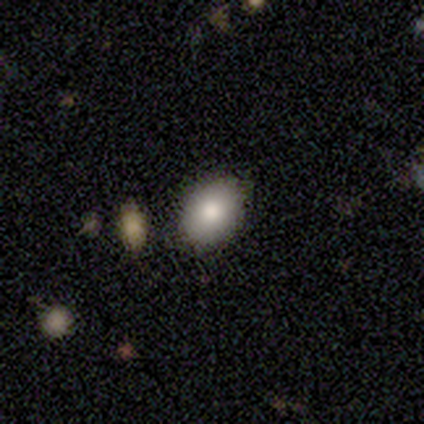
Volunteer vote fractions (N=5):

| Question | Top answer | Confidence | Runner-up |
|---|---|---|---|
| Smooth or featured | smooth | 100% | — |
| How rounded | in between | 100% | — |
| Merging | none | 100% | — |